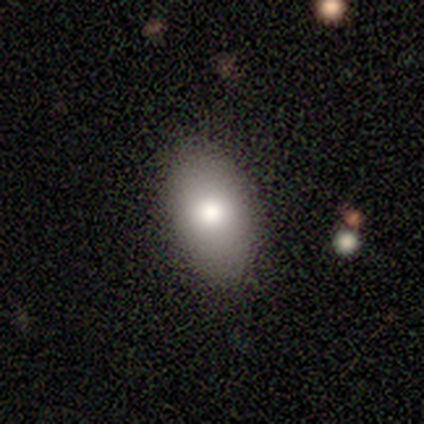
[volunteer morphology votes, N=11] Volunteers were most divided on "smooth or featured": smooth: 82%, featured or disk: 18%, star or artifact: 0%. More confident: merging — none (91%); how rounded — in between (89%).